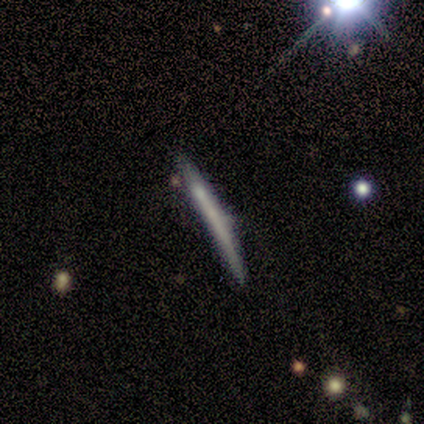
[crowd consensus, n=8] A smooth galaxy with no disk features (75%) that is cigar-shaped (100%). Merging: none (88%).